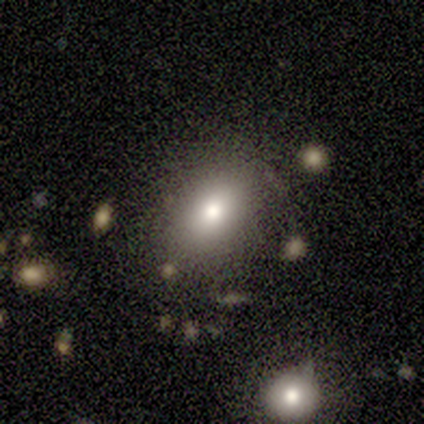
smooth 86%, featured or disk 14%, star or artifact 0%. Down the decision tree: how rounded — in between (83%); merging — none (86%).